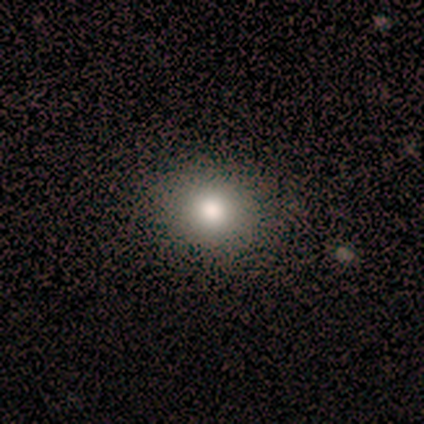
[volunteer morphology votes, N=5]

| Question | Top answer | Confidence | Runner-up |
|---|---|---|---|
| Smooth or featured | smooth | 80% | star or artifact (20%) |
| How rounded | round | 75% | in between (25%) |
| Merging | none | 100% | — |